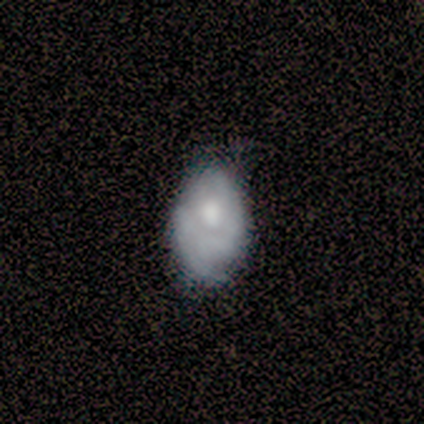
smooth-or-featured: featured or disk: 45% | smooth: 40% | star or artifact: 15%
  disk-edge-on: no: 100% | yes: 0%
    bar: no: 83% | weak: 11% | strong: 6%
    has-spiral-arms: yes: 56% | no: 44%
      spiral-winding: tight: 60% | medium: 40% | loose: 0%
      spiral-arm-count: can't tell: 70% | 2: 30% | 1: 0% | 3: 0% | 4: 0% | more than 4: 0%
    bulge-size: moderate: 61% | small: 17% | none: 17% | dominant: 6% | large: 0%
  merging: none: 53% | minor disturbance: 35% | major disturbance: 12% | merger: 0%